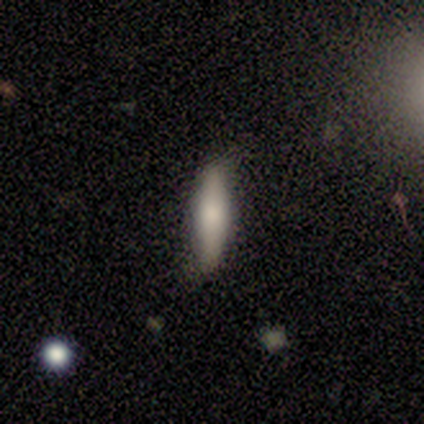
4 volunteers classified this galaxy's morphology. smooth_or_featured: smooth (p=0.75) [alt: featured or disk p=0.25]
how_rounded: cigar-shaped (p=1.00)
merging: none (p=0.75) [alt: minor disturbance p=0.25]